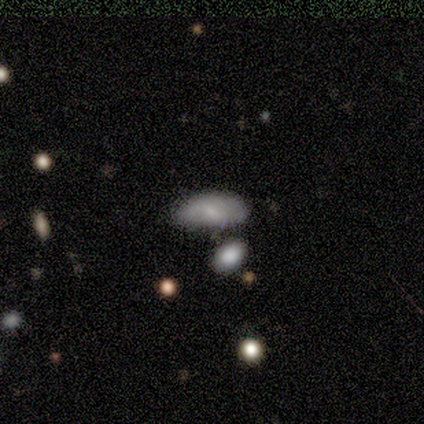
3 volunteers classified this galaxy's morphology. Smooth or featured?
  - smooth: 100% *
  - featured or disk: 0%
  - star or artifact: 0%
How rounded?
  - in between: 100% *
  - round: 0%
  - cigar-shaped: 0%
Merging?
  - none: 33% * (tied)
  - minor disturbance: 33% * (tied)
  - merger: 33% * (tied)
  - major disturbance: 0%